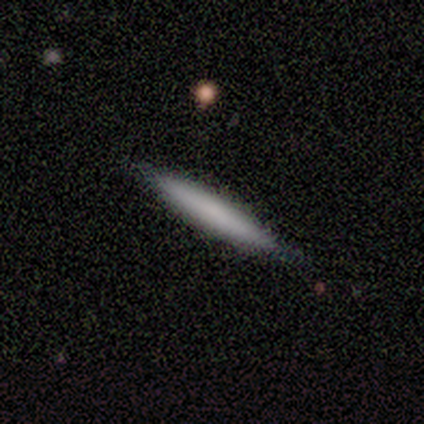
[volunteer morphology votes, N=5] Smooth or featured? 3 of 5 (60%) said smooth. How rounded? 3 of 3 (100%) said cigar-shaped. Merging? 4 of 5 (80%) said none.